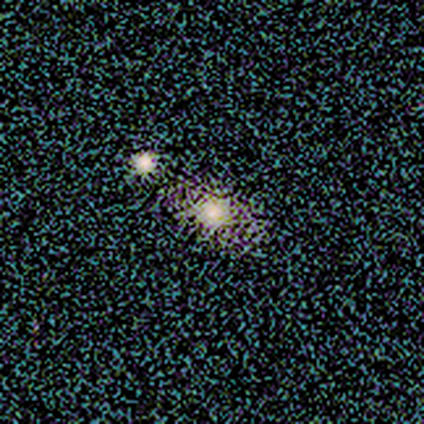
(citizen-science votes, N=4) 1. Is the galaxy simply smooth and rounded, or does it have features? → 50% smooth (tied), 50% star or artifact (tied), 0% featured or disk.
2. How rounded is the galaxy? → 100% in between, 0% round, 0% cigar-shaped.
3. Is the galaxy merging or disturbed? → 100% none, 0% minor disturbance, 0% major disturbance, 0% merger.